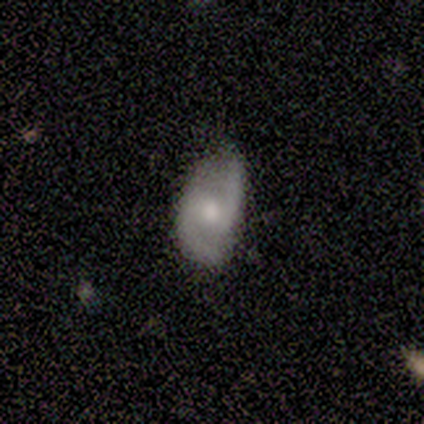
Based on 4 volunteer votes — Smooth or featured?
  - featured or disk: 100% *
  - smooth: 0%
  - star or artifact: 0%
Edge-on disk?
  - no: 75% *
  - yes: 25%
Bar?
  - no: 67% *
  - weak: 33%
  - strong: 0%
Spiral arms?
  - yes: 100% *
  - no: 0%
Spiral winding?
  - loose: 67% *
  - medium: 33%
  - tight: 0%
Spiral arm count?
  - 2: 100% *
  - 1: 0%
  - 3: 0%
  - 4: 0%
  - more than 4: 0%
  - can't tell: 0%
Bulge size?
  - moderate: 100% *
  - dominant: 0%
  - large: 0%
  - small: 0%
  - none: 0%
Merging?
  - none: 50% *
  - minor disturbance: 25%
  - major disturbance: 25%
  - merger: 0%